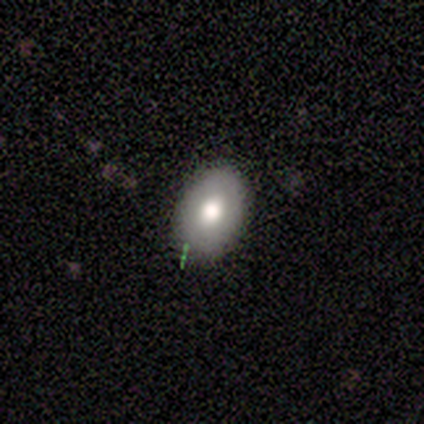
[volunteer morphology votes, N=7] Smooth or featured? smooth (86%)
How rounded? in between (100%)
Merging? none (100%)